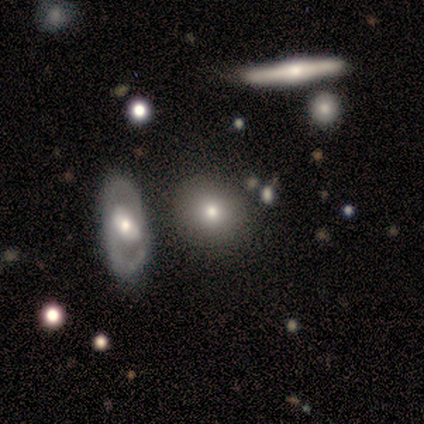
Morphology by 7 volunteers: Volunteers were most divided on "how rounded": round: 71%, in between: 29%, cigar-shaped: 0%. More confident: smooth or featured — smooth (100%); merging — none (86%).